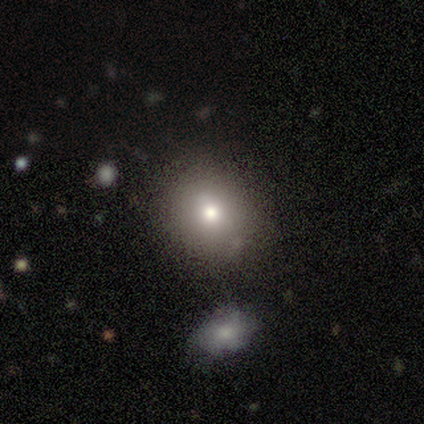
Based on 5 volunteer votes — Smooth or featured: smooth — 60% (featured or disk — 20%)
How rounded: in between — 67% (round — 33%)
Merging: none — 75% (merger — 25%)